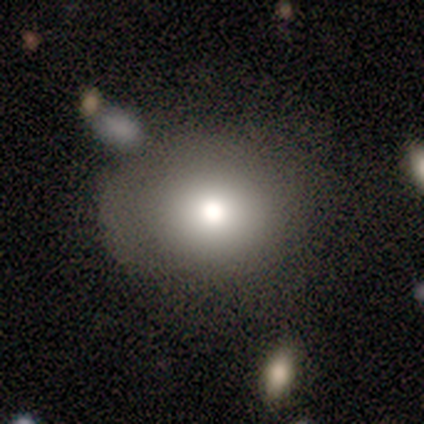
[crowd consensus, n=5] smooth-or-featured: smooth: 80% | featured or disk: 20% | star or artifact: 0%
  how-rounded: round: 75% | in between: 25% | cigar-shaped: 0%
  merging: none: 60% | minor disturbance: 40% | major disturbance: 0% | merger: 0%